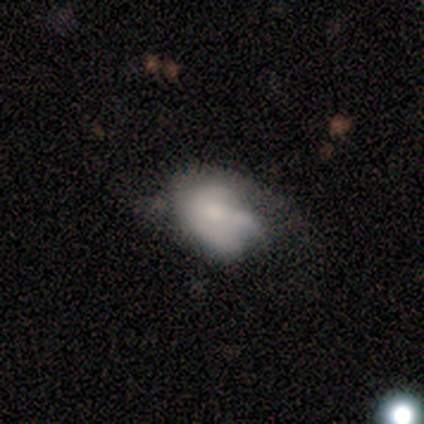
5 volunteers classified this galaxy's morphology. Volunteers were most divided on "smooth or featured" (2-way tie): smooth: 40%, featured or disk: 40%, star or artifact: 20%; "how rounded" (2-way tie): round: 50%, in between: 50%, cigar-shaped: 0%. More confident: merging — none (50%).